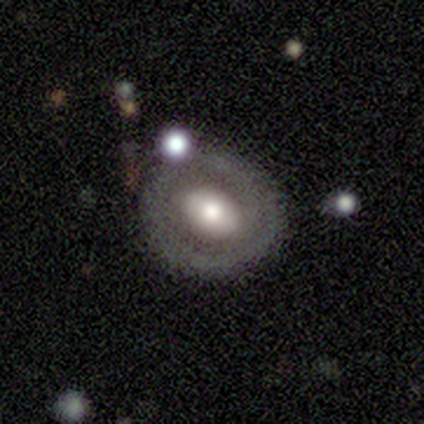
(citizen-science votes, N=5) Smooth or featured?
  - featured or disk: 80% *
  - smooth: 20%
  - star or artifact: 0%
Edge-on disk?
  - no: 100% *
  - yes: 0%
Bar?
  - strong: 50% *
  - weak: 25%
  - no: 25%
Spiral arms?
  - no: 100% *
  - yes: 0%
Bulge size?
  - moderate: 50% *
  - large: 25%
  - small: 25%
  - dominant: 0%
  - none: 0%
Merging?
  - none: 60% *
  - minor disturbance: 20%
  - merger: 20%
  - major disturbance: 0%